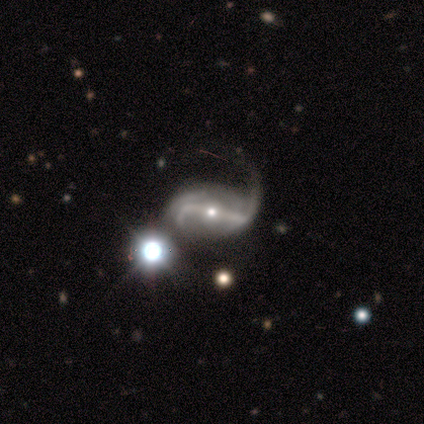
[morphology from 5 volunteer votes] Volunteers were most divided on "smooth or featured" (2-way tie): featured or disk: 40%, star or artifact: 40%, smooth: 20%; "spiral arm count" (2-way tie): 2: 50%, can't tell: 50%, 1: 0%, 3: 0%, 4: 0%, more than 4: 0%; "bulge size" (2-way tie): moderate: 50%, small: 50%, dominant: 0%, large: 0%, none: 0%; "merging" (3-way tie): none: 33%, minor disturbance: 33%, major disturbance: 33%, merger: 0%. More confident: edge-on disk — no (100%); bar — strong (100%); spiral arms — yes (100%); spiral winding — medium (100%).